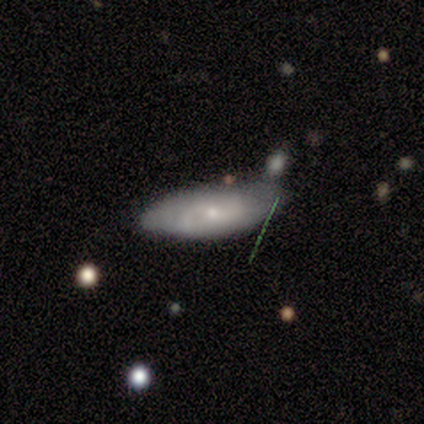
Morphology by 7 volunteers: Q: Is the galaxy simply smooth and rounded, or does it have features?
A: smooth — 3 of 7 (43%, tied with featured or disk).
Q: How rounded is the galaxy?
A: in between — 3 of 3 (100%).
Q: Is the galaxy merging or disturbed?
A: none — 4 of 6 (67%).